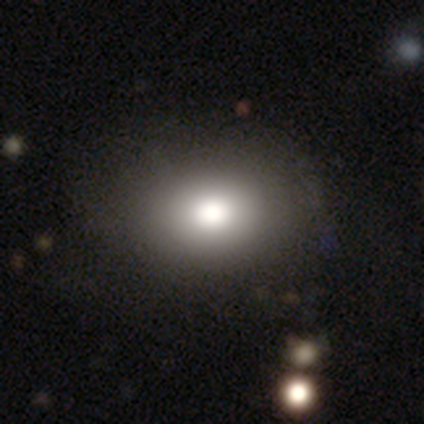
smooth-or-featured: smooth: 86% | featured or disk: 11% | star or artifact: 3%
  how-rounded: in between: 84% | round: 16% | cigar-shaped: 0%
  merging: none: 51% | minor disturbance: 14% | major disturbance: 3% | merger: 3%